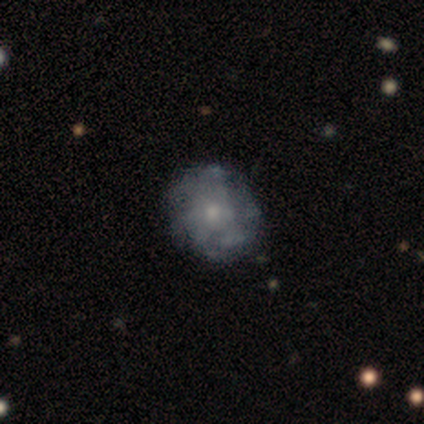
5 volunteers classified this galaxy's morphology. Smooth or featured?
  - featured or disk: 60% *
  - smooth: 20%
  - star or artifact: 20%
Edge-on disk?
  - no: 100% *
  - yes: 0%
Bar?
  - no: 67% *
  - weak: 33%
  - strong: 0%
Spiral arms?
  - no: 67% *
  - yes: 33%
Bulge size?
  - small: 67% *
  - moderate: 33%
  - dominant: 0%
  - large: 0%
  - none: 0%
Merging?
  - none: 100% *
  - minor disturbance: 0%
  - major disturbance: 0%
  - merger: 0%